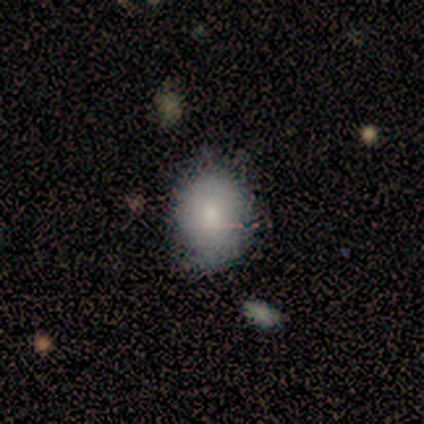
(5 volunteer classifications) Smooth or featured? smooth (80%)
How rounded? round (50%, tied with in between)
Merging? none (75%)